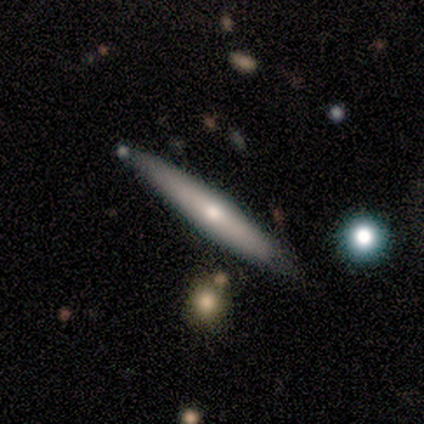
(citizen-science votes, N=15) A featured or disk galaxy (67%) viewed edge-on (90%) with a rounded central bulge (89%). Merging: none (79%).